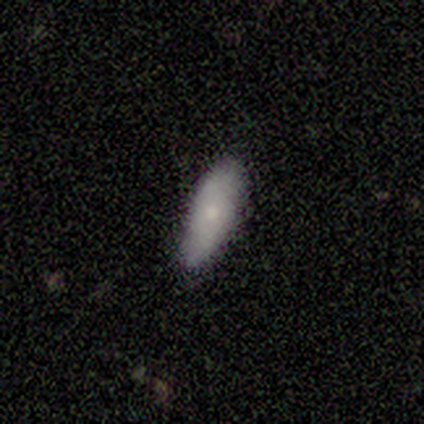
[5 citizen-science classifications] Volunteers were most divided on "smooth or featured": smooth: 60%, featured or disk: 40%, star or artifact: 0%. More confident: merging — none (80%); how rounded — in between (67%).